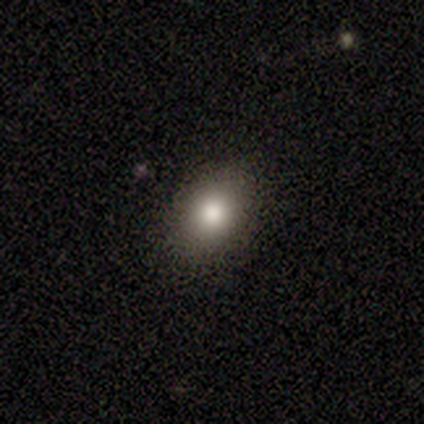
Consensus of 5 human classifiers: smooth 80%, featured or disk 20%, star or artifact 0%. Down the decision tree: how rounded — in between (75%); merging — none (80%).